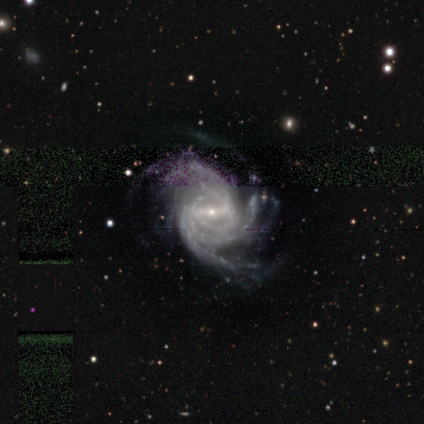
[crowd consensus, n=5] A featured or disk galaxy (100%) with a strong bar (40%, tied with weak), 3 (60%) tight (60%) spiral arms (100%) and a small central bulge (80%). Merging: none (60%).